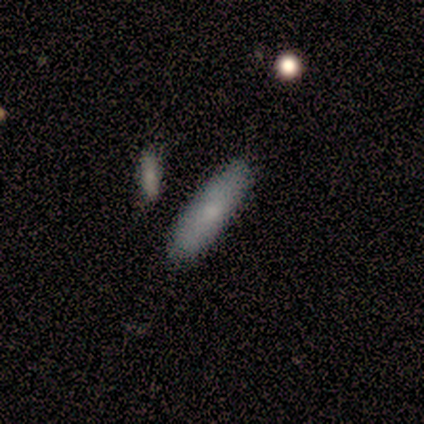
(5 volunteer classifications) smooth_or_featured: smooth (p=0.60) [alt: featured or disk p=0.40]
how_rounded: cigar-shaped (p=0.67) [alt: in between p=0.33]
merging: none (p=1.00)